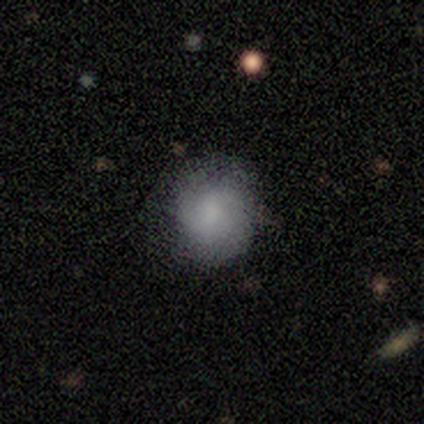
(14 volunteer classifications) Overall: smooth (79%). How rounded: round (100%). Merging: none (77%).